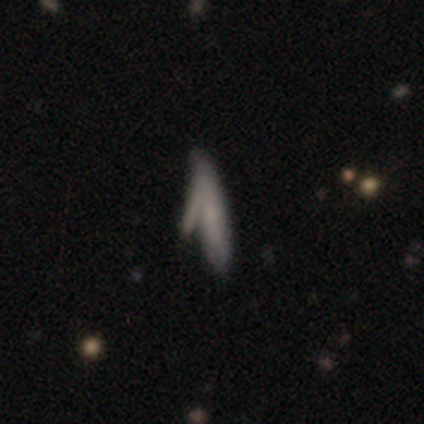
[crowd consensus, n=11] smooth 45% (tied), featured or disk 45% (tied), star or artifact 9%. Down the decision tree: how rounded — cigar-shaped (100%); merging — none (40%).